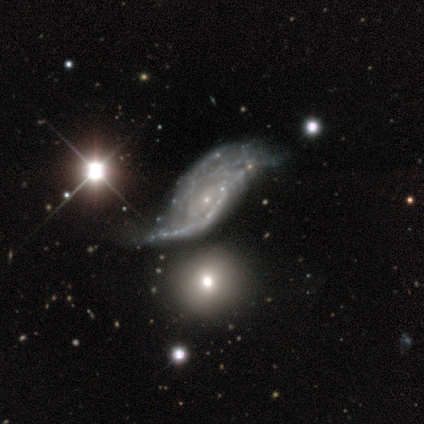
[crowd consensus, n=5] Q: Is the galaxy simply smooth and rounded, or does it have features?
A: featured or disk — 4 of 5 (80%).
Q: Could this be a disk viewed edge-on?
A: no — 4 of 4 (100%).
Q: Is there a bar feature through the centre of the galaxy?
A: weak — 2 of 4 (50%, tied with no).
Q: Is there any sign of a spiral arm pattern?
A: yes — 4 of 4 (100%).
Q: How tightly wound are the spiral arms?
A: tight — 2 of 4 (50%).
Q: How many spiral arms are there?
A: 4 — 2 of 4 (50%).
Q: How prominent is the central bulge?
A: small — 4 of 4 (100%).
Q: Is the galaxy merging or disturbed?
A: minor disturbance — 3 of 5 (60%).